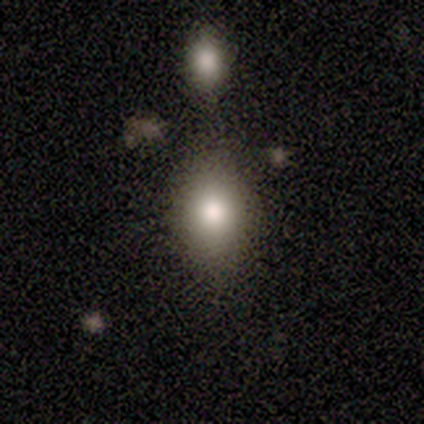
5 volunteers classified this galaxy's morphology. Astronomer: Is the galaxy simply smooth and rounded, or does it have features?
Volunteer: smooth — 60%.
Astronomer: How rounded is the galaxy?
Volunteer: round — 67%.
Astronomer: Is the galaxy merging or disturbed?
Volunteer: none — 50%, tied with merger at 50%.